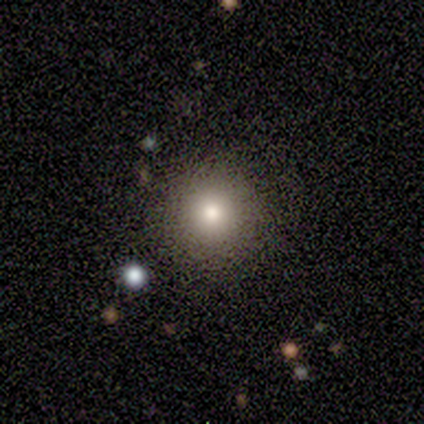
Q: Smooth or featured?
A: smooth (50%); tied with: star or artifact (50%)
Q: How rounded?
A: round (100%)
Q: Merging?
A: none (100%)